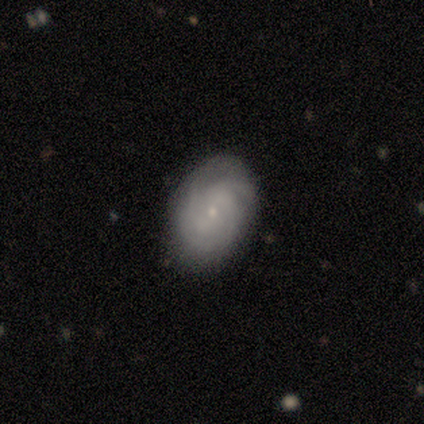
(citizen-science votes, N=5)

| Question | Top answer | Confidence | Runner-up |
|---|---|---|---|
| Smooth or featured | featured or disk | 80% | smooth (20%) |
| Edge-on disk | no | 100% | — |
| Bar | weak | 50% | tied: no (50%) |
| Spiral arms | yes | 100% | — |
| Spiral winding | tight | 100% | — |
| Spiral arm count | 3 | 50% | tied: can't tell (50%) |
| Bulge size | small | 100% | — |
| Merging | none | 80% | minor disturbance (20%) |